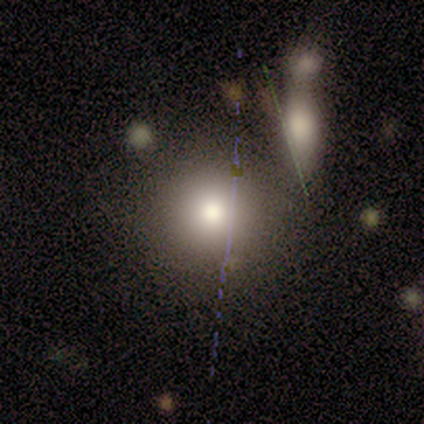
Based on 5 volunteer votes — Volunteers were most divided on "smooth or featured": smooth: 60%, featured or disk: 40%, star or artifact: 0%. More confident: how rounded — round (67%); merging — none (60%).